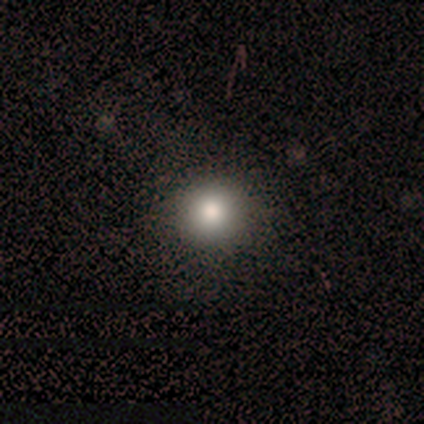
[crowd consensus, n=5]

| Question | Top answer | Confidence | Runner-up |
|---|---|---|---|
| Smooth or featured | smooth | 100% | — |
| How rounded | round | 100% | — |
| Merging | none | 100% | — |